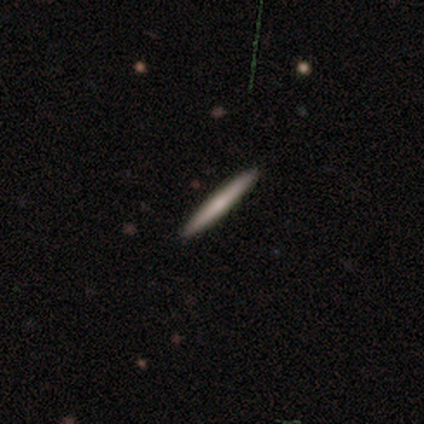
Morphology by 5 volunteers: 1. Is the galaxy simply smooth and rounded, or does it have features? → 80% smooth, 20% featured or disk, 0% star or artifact.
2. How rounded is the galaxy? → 100% cigar-shaped, 0% round, 0% in between.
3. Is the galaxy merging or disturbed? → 100% none, 0% minor disturbance, 0% major disturbance, 0% merger.